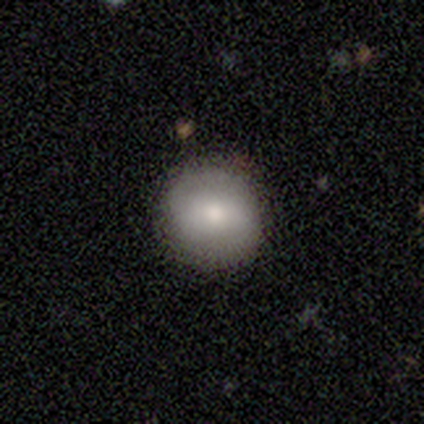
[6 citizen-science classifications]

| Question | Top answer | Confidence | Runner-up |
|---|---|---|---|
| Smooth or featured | smooth | 83% | featured or disk (17%) |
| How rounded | round | 80% | in between (20%) |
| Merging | none | 83% | minor disturbance (17%) |